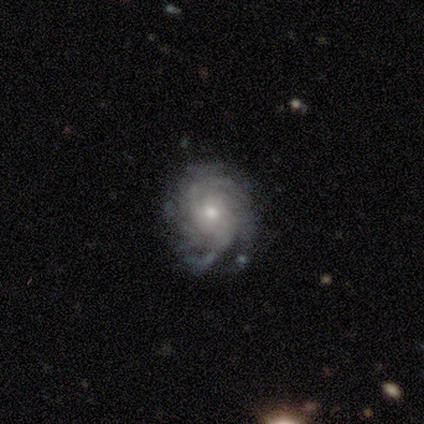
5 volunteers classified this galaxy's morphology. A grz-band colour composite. It shows a featured or disk galaxy (100%) with no bar (80%), more than 4 (40%) tight (80%) spiral arms (100%) and a small central bulge (60%). Merging: none (100%).